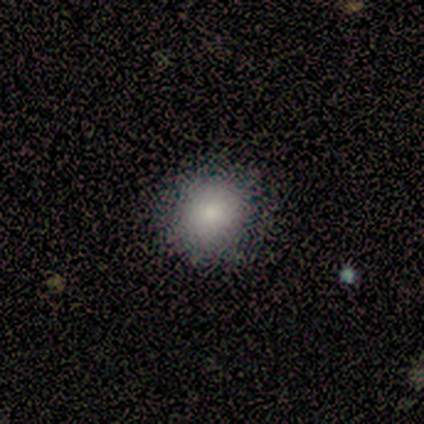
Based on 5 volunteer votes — This appears to be a smooth galaxy with no disk features (60%) that is round (100%). Merging: none (100%).